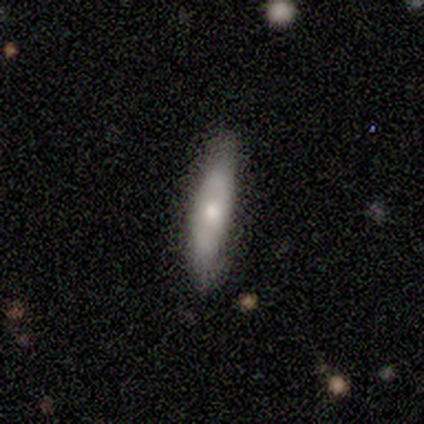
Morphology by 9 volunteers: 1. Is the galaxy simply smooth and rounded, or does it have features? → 67% smooth, 33% featured or disk, 0% star or artifact.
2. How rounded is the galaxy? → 83% cigar-shaped, 17% in between, 0% round.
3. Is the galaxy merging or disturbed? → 100% none, 0% minor disturbance, 0% major disturbance, 0% merger.